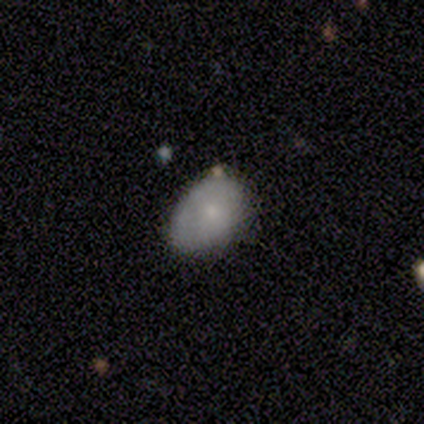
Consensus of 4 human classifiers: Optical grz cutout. It shows a featured or disk galaxy (50%) with no bar (100%), no spiral arms (100%) and a small central bulge (100%). Merging: none (67%).